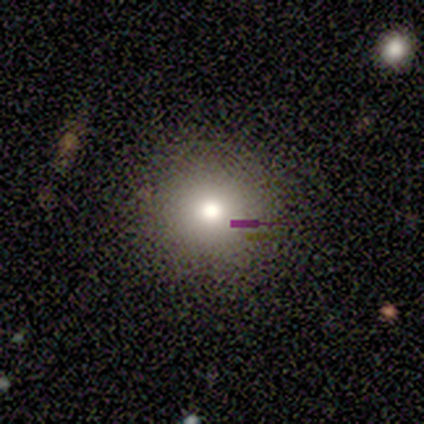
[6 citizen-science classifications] A smooth galaxy with no disk features (83%) that is round (60%). Merging: none (100%).